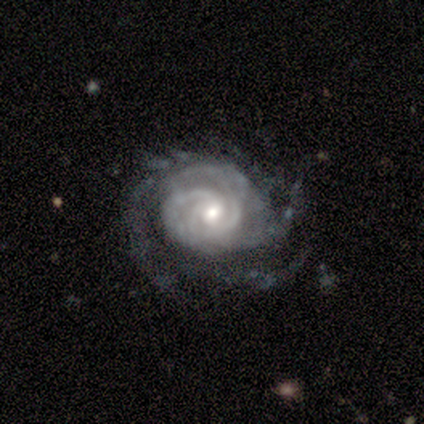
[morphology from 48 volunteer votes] Smooth or featured?
  - featured or disk: 94% *
  - star or artifact: 4%
  - smooth: 2%
Edge-on disk?
  - no: 98% *
  - yes: 2%
Bar?
  - no: 61% *
  - weak: 36%
  - strong: 2%
Spiral arms?
  - yes: 100% *
  - no: 0%
Spiral winding?
  - tight: 68% *
  - medium: 27%
  - loose: 5%
Spiral arm count?
  - can't tell: 41% *
  - 3: 30%
  - 4: 14%
  - 2: 9%
  - more than 4: 7%
  - 1: 0%
Bulge size?
  - moderate: 61% *
  - small: 32%
  - large: 7%
  - dominant: 0%
  - none: 0%
Merging?
  - none: 61% *
  - major disturbance: 22%
  - minor disturbance: 15%
  - merger: 2%